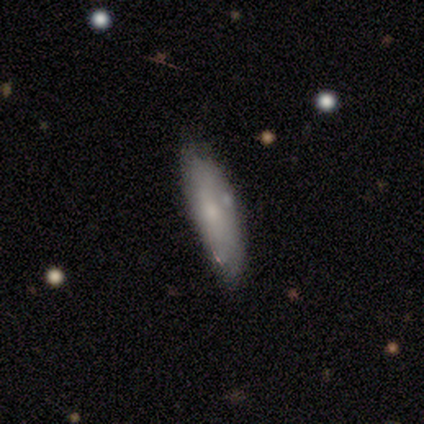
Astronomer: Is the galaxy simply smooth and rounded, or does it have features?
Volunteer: smooth — 50% (runner-up: featured or disk, 47%).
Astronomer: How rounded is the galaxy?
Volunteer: in between — 67%.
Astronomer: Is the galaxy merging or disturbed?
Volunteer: minor disturbance — 40% (runner-up: none, 31%).